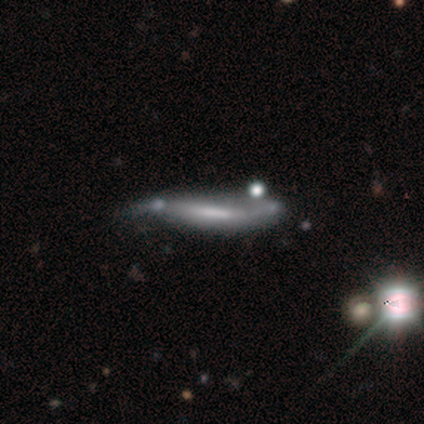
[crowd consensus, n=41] This is possibly a featured or disk galaxy (54%). It is likely viewed edge-on (68%). Edge-on bulge: likely none (73%). Merging: marginally minor disturbance (27%).